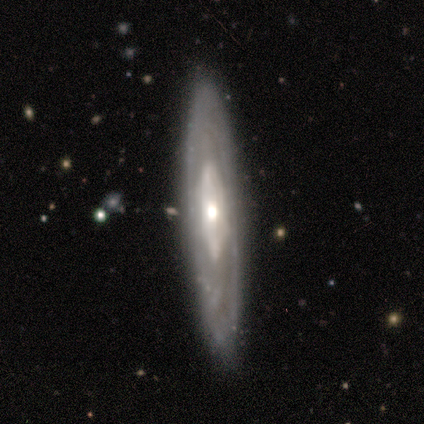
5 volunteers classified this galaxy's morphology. type=featured or disk (100%); edge-on=yes (80%); edge-on bulge=rounded (75%); merging=none (100%).